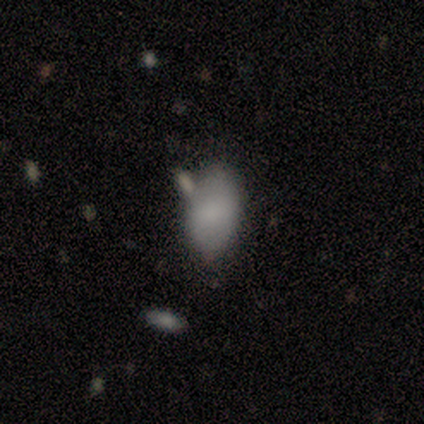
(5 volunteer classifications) smooth_or_featured: smooth (p=0.60) [alt: featured or disk p=0.40]
how_rounded: in between (p=1.00)
merging: minor disturbance (p=0.40) [tied with: merger p=0.40]